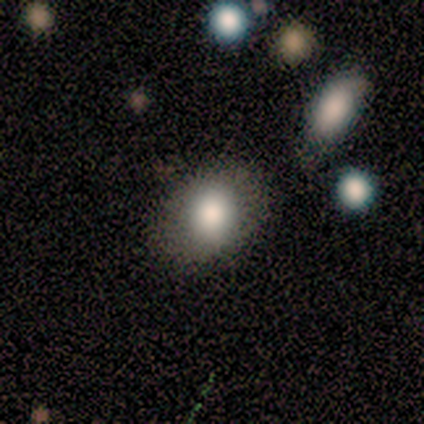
Smooth or featured? 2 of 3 (67%) said smooth. How rounded? 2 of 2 (100%) said in between. Merging? 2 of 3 (67%) said none.